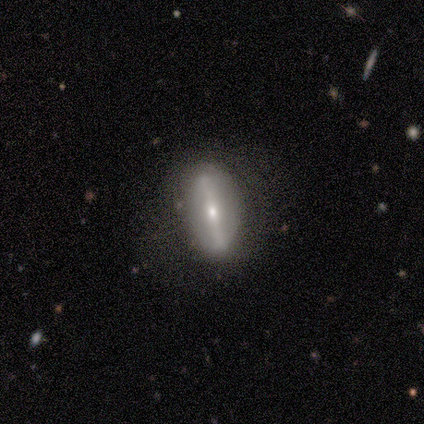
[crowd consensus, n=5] Volunteers were most divided on "smooth or featured": featured or disk: 60%, smooth: 40%, star or artifact: 0%. More confident: bar — strong (100%); spiral arms — no (100%); bulge size — small (100%); edge-on disk — no (67%); merging — none (60%).